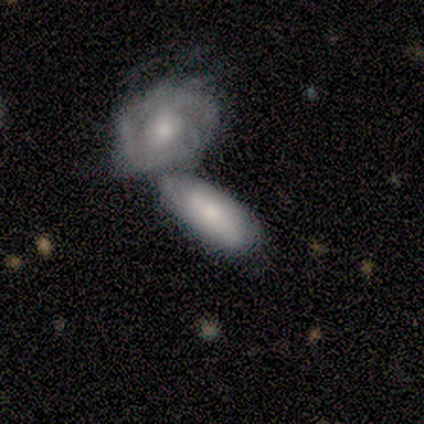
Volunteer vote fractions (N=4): Smooth or featured?
  - featured or disk: 75% *
  - smooth: 25%
  - star or artifact: 0%
Edge-on disk?
  - no: 67% *
  - yes: 33%
Bar?
  - weak: 50% * (tied)
  - no: 50% * (tied)
  - strong: 0%
Spiral arms?
  - yes: 100% *
  - no: 0%
Spiral winding?
  - tight: 100% *
  - medium: 0%
  - loose: 0%
Spiral arm count?
  - 4: 50% * (tied)
  - can't tell: 50% * (tied)
  - 1: 0%
  - 2: 0%
  - 3: 0%
  - more than 4: 0%
Bulge size?
  - moderate: 100% *
  - dominant: 0%
  - large: 0%
  - small: 0%
  - none: 0%
Merging?
  - merger: 100% *
  - none: 0%
  - minor disturbance: 0%
  - major disturbance: 0%